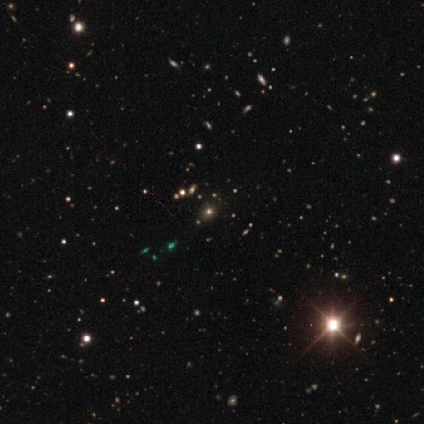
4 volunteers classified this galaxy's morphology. Smooth or featured?
  - star or artifact: 75% *
  - smooth: 25%
  - featured or disk: 0%